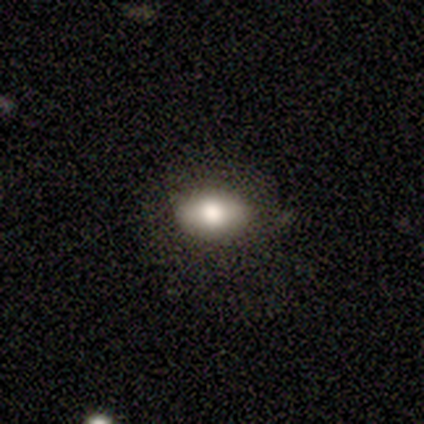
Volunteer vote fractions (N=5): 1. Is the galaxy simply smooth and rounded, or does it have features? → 80% smooth, 20% featured or disk, 0% star or artifact.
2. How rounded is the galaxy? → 100% in between, 0% round, 0% cigar-shaped.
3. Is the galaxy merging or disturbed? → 80% none, 20% minor disturbance, 0% major disturbance, 0% merger.